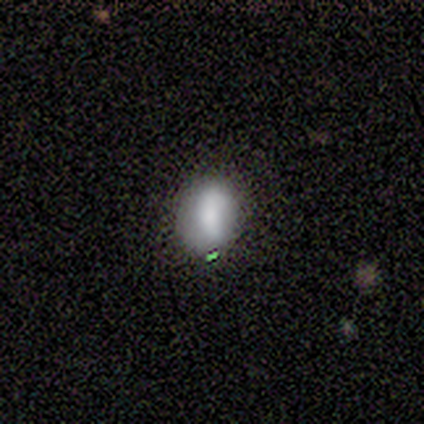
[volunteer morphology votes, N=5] Smooth or featured: smooth — 60% (featured or disk — 20%)
How rounded: in between — 100%
Merging: none — 75% (minor disturbance — 25%)